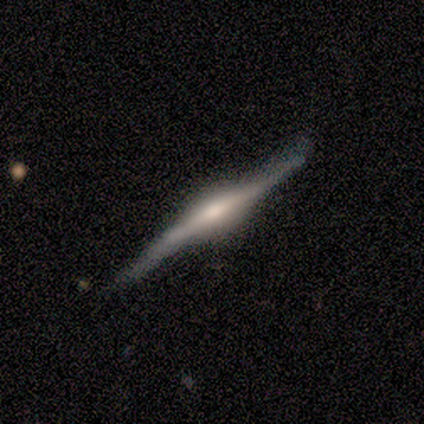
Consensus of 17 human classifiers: A featured or disk galaxy (88%) viewed edge-on (100%) with a rounded central bulge (80%).

Vote fractions:
- Smooth or featured? featured or disk: 88% / smooth: 12% / star or artifact: 0%
- Edge-on disk? yes: 100% / no: 0%
- Edge-on bulge? rounded: 80% / boxy: 20% / none: 0%
- Merging? none: 71% / minor disturbance: 29% / major disturbance: 0% / merger: 0%